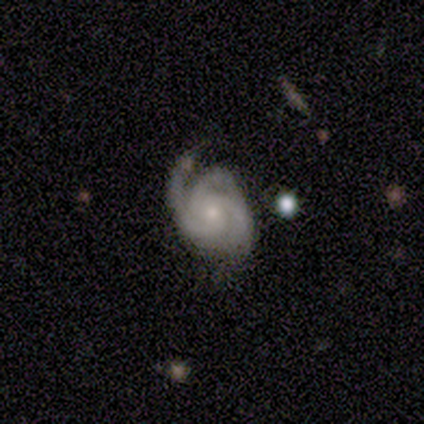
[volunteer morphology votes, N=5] smooth-or-featured: featured or disk: 100% | smooth: 0% | star or artifact: 0%
  disk-edge-on: no: 100% | yes: 0%
    bar: no: 80% | weak: 20% | strong: 0%
    has-spiral-arms: yes: 100% | no: 0%
      spiral-winding: medium: 60% | tight: 20% | loose: 20%
      spiral-arm-count: 3: 40% (tied) | can't tell: 40% (tied) | 1: 20% | 2: 0% | 4: 0% | more than 4: 0%
    bulge-size: small: 100% | dominant: 0% | large: 0% | moderate: 0% | none: 0%
  merging: none: 60% | minor disturbance: 40% | major disturbance: 0% | merger: 0%